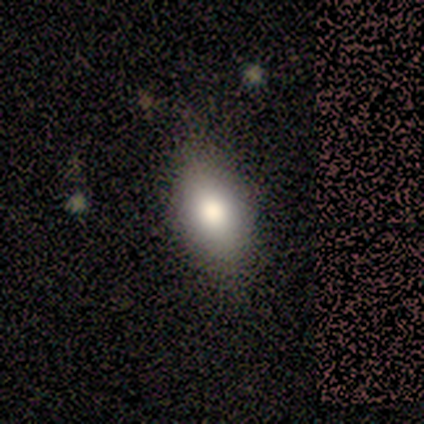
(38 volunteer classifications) smooth-or-featured: smooth: 71% | featured or disk: 21% | star or artifact: 8%
  how-rounded: in between: 89% | round: 7% | cigar-shaped: 4%
  merging: none: 71% | minor disturbance: 20% | major disturbance: 9% | merger: 0%